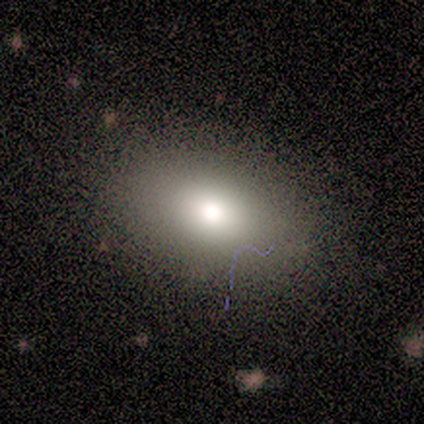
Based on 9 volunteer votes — Overall: smooth (67%). How rounded: in between (67%; round 33%). Merging: none (62%; minor disturbance 25%).